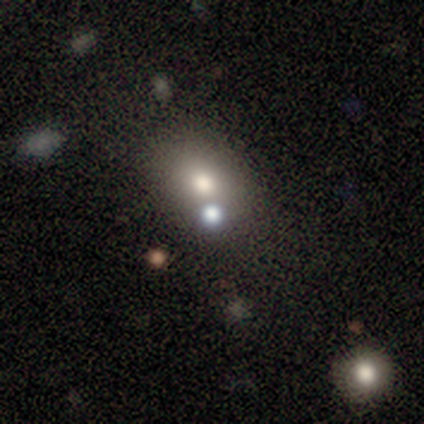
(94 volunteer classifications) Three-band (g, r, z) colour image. It shows a smooth galaxy with no disk features (65%) that is in between round and cigar-shaped (64%). Merging: none (69%).